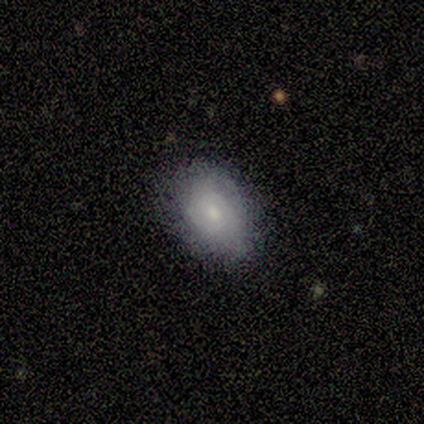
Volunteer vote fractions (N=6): smooth 83%, star or artifact 17%, featured or disk 0%. Down the decision tree: how rounded — in between (60%); merging — minor disturbance (60%).